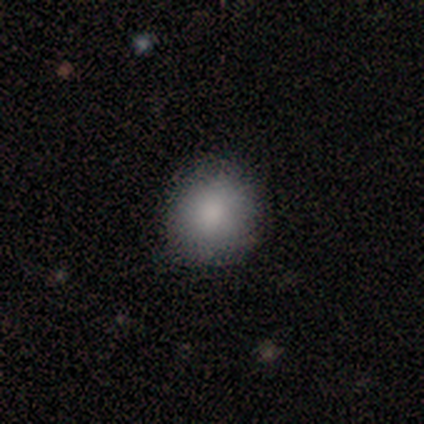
Smooth or featured? smooth (100%)
How rounded? round (100%)
Merging? none (100%)